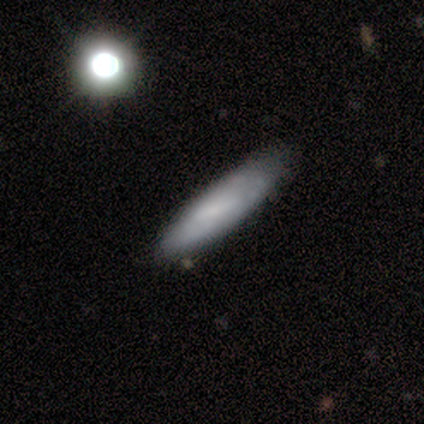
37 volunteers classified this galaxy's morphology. type=smooth (68%); roundness=cigar-shaped (76%); merging=none (58%).